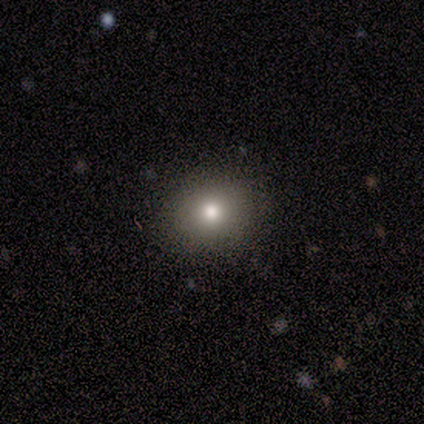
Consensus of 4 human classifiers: Consensus on every question: smooth or featured — smooth (100%); how rounded — round (100%); merging — none (100%).